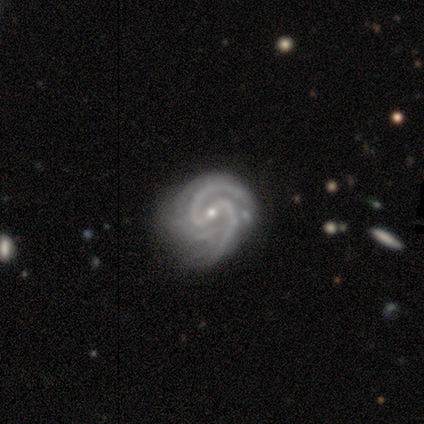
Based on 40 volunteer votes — smooth_or_featured: featured or disk (p=0.95) [alt: smooth p=0.03]
disk_edge_on: no (p=0.97) [alt: yes p=0.03]
bar: weak (p=0.51) [alt: strong p=0.27]
has_spiral_arms: yes (p=1.00)
spiral_winding: tight (p=0.49) [alt: medium p=0.46]
spiral_arm_count: 2 (p=0.62) [alt: 3 p=0.19]
bulge_size: small (p=0.76) [alt: moderate p=0.24]
merging: none (p=0.41) [alt: minor disturbance p=0.21]